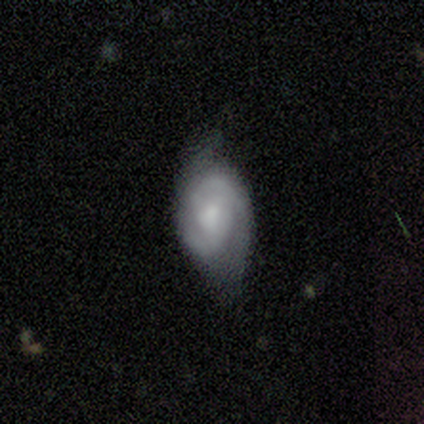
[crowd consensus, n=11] smooth-or-featured: featured or disk: 82% | smooth: 9% | star or artifact: 9%
  disk-edge-on: no: 100% | yes: 0%
    bar: no: 78% | strong: 11% | weak: 11%
    has-spiral-arms: yes: 89% | no: 11%
      spiral-winding: tight: 75% | loose: 25% | medium: 0%
      spiral-arm-count: 2: 88% | 1: 12% | 3: 0% | 4: 0% | more than 4: 0% | can't tell: 0%
    bulge-size: small: 44% | moderate: 33% | large: 11% | none: 11% | dominant: 0%
  merging: none: 70% | minor disturbance: 20% | major disturbance: 10% | merger: 0%